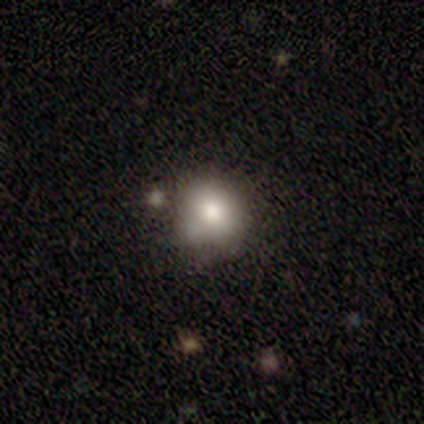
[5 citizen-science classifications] A smooth galaxy with no disk features (80%) that is round (75%). Merging: merger (60%).